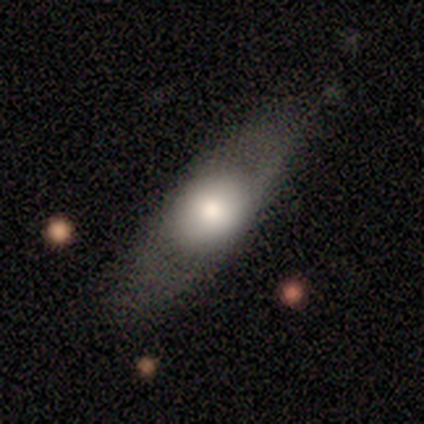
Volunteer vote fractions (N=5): A smooth galaxy with no disk features (60%) that is in between round and cigar-shaped (100%). Merging: none (80%).